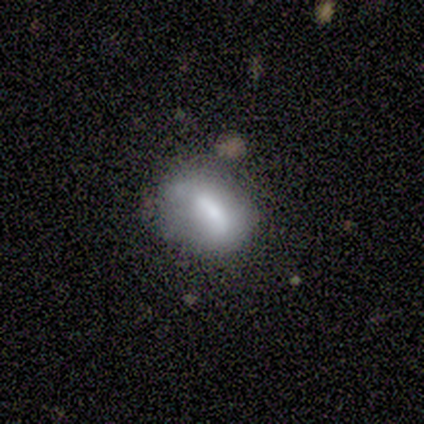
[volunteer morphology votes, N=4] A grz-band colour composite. It shows a smooth galaxy with no disk features (50%, tied with featured or disk) that is round (50%, tied with in between). Merging: none (75%).